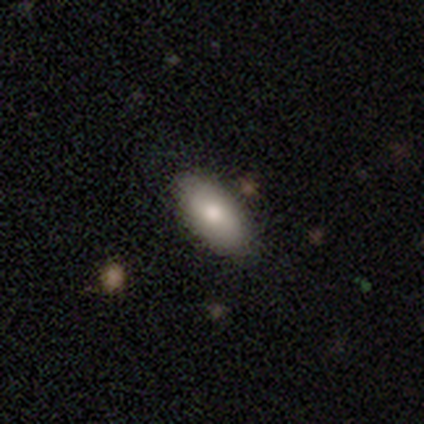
This appears to be a smooth galaxy with no disk features (80%) that is in between round and cigar-shaped (75%). Merging: none (80%).